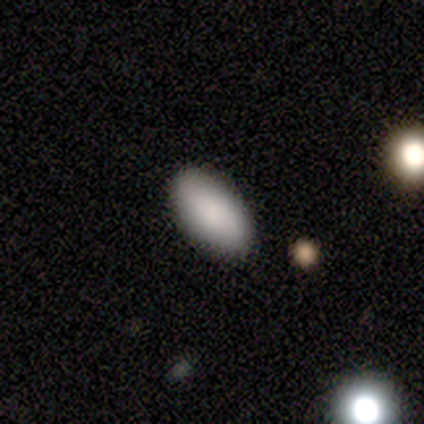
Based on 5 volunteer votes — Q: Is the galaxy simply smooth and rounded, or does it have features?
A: smooth — 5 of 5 (100%).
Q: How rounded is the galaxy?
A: in between — 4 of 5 (80%).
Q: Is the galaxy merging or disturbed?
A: none — 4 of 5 (80%).